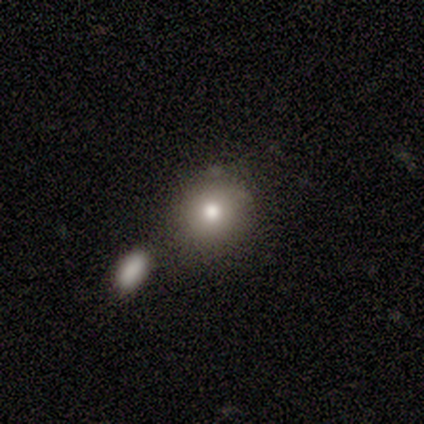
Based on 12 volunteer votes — Smooth or featured?
  - smooth: 67% *
  - star or artifact: 25%
  - featured or disk: 8%
How rounded?
  - round: 88% *
  - in between: 12%
  - cigar-shaped: 0%
Merging?
  - none: 89% *
  - minor disturbance: 11%
  - major disturbance: 0%
  - merger: 0%